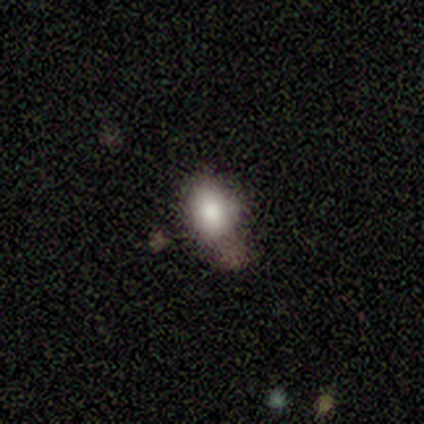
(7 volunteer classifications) A smooth galaxy with no disk features (86%) that is round (67%). Merging: none (67%).